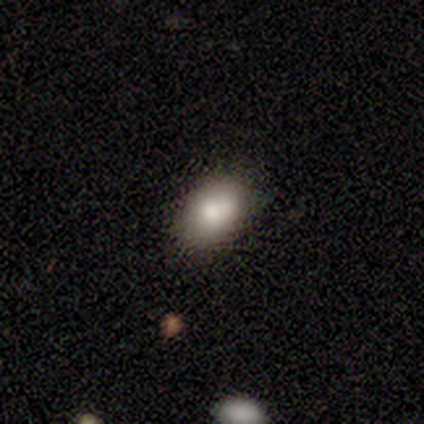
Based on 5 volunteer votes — Volunteers were most divided on "smooth or featured" (2-way tie): smooth: 40%, star or artifact: 40%, featured or disk: 20%. More confident: how rounded — in between (100%); merging — none (67%).